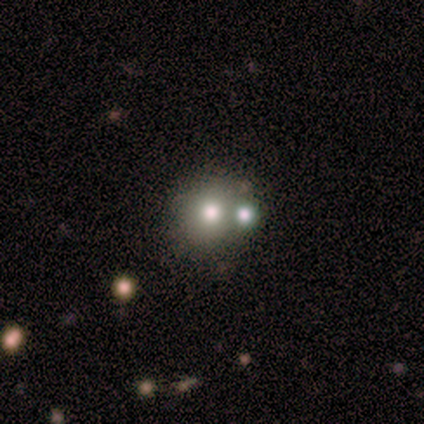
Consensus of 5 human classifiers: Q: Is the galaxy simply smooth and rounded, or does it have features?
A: smooth — 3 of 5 (60%).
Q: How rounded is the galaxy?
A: round — 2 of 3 (67%).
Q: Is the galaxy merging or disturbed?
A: merger — 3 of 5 (60%).